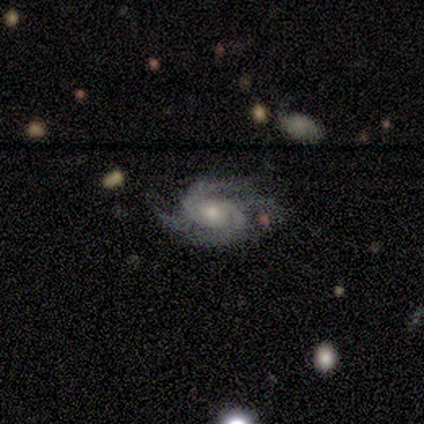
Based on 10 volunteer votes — This appears to be a featured or disk galaxy (100%) with no bar (80%), 2 (30%, tied with 4) tight (50%) spiral arms (100%) and a moderate central bulge (40%, tied with small). Merging: none (80%).